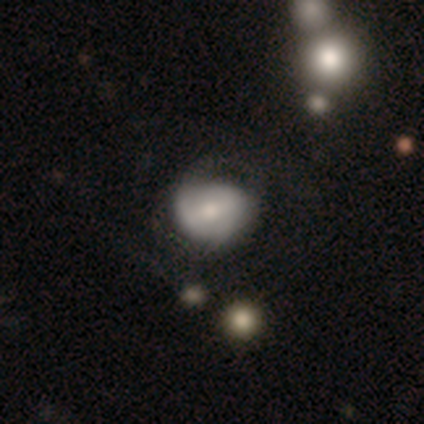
smooth-or-featured: featured or disk: 80% | smooth: 20% | star or artifact: 0%
  disk-edge-on: no: 100% | yes: 0%
    bar: no: 75% | strong: 25% | weak: 0%
    has-spiral-arms: no: 75% | yes: 25%
    bulge-size: moderate: 50% (tied) | small: 50% (tied) | dominant: 0% | large: 0% | none: 0%
  merging: minor disturbance: 60% | major disturbance: 40% | none: 0% | merger: 0%